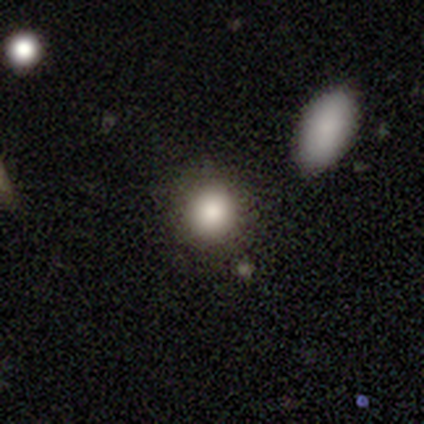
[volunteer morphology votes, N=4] Volunteers were most divided on "how rounded": round: 75%, in between: 25%, cigar-shaped: 0%. More confident: smooth or featured — smooth (100%); merging — none (100%).